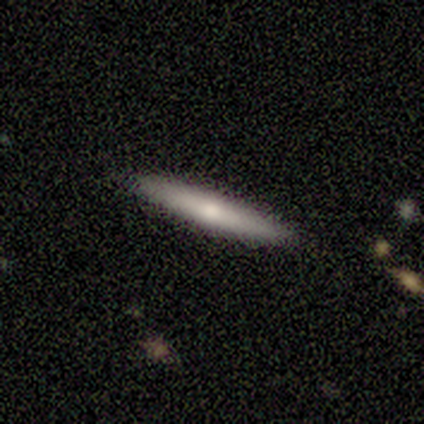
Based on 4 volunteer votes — Volunteers were most divided on "smooth or featured" (2-way tie): smooth: 50%, featured or disk: 50%, star or artifact: 0%. More confident: how rounded — cigar-shaped (100%); merging — none (100%).